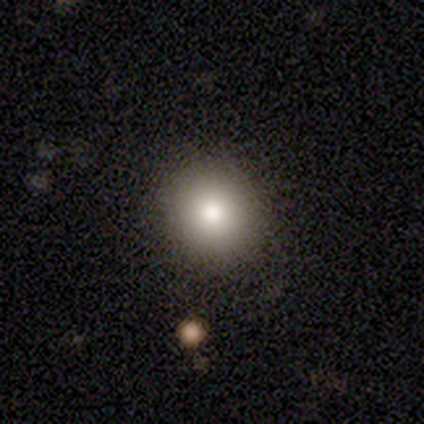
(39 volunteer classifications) Smooth or featured?
  - smooth: 72% *
  - star or artifact: 18%
  - featured or disk: 10%
How rounded?
  - round: 79% *
  - in between: 21%
  - cigar-shaped: 0%
Merging?
  - none: 88% *
  - minor disturbance: 9%
  - merger: 3%
  - major disturbance: 0%